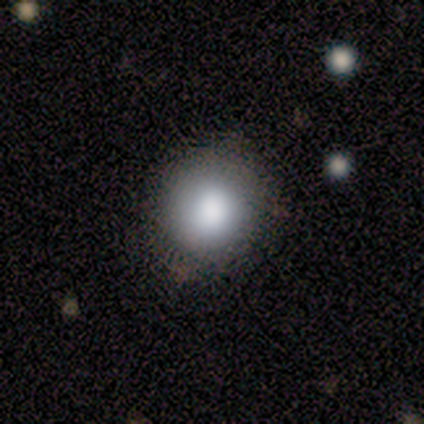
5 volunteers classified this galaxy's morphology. type=smooth (100%); roundness=round (60%); merging=none (60%).